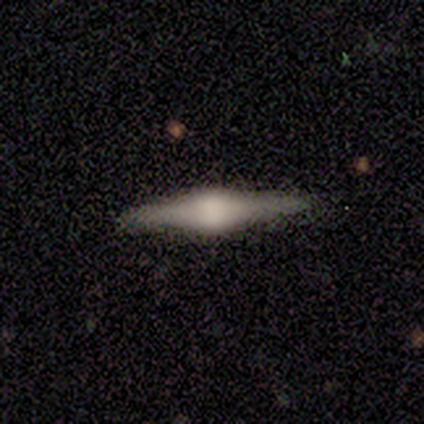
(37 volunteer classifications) A featured or disk galaxy (81%) viewed edge-on (100%) with a rounded central bulge (77%).

Vote fractions:
- Smooth or featured? featured or disk: 81% / smooth: 19% / star or artifact: 0%
- Edge-on disk? yes: 100% / no: 0%
- Edge-on bulge? rounded: 77% / boxy: 20% / none: 3%
- Merging? none: 76% / minor disturbance: 22% / major disturbance: 3% / merger: 0%